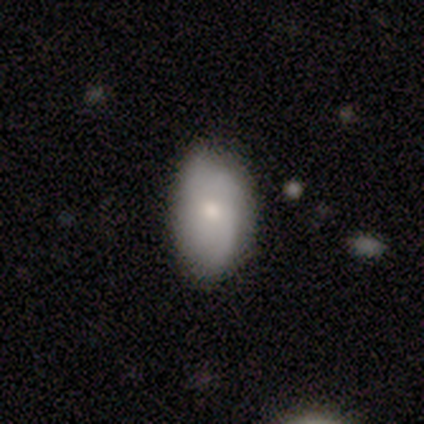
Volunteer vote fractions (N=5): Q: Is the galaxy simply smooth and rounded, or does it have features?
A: smooth — 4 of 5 (80%).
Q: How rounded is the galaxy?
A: in between — 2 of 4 (50%).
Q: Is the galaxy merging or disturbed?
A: none — 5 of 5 (100%).